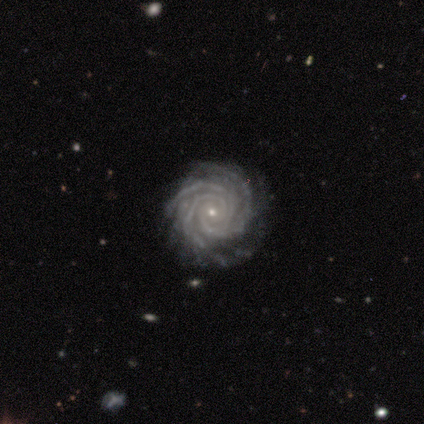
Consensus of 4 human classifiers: Smooth or featured? 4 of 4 (100%) said featured or disk. Edge-on disk? 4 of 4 (100%) said no. Bar? 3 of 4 (75%) said no. Spiral arms? 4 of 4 (100%) said yes. Spiral winding? 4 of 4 (100%) said tight. Spiral arm count? 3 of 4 (75%) said 3. Bulge size? 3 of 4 (75%) said small. Merging? 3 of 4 (75%) said none.